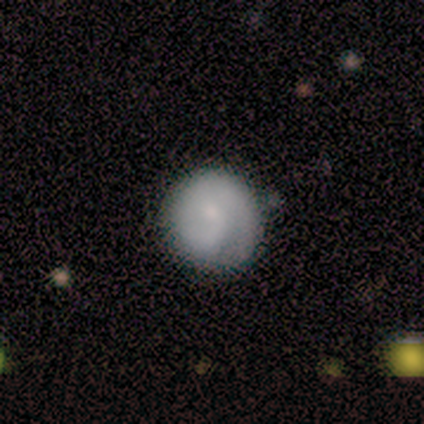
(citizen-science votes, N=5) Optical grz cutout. It shows a smooth galaxy with no disk features (80%) that is round (100%). Merging: none (80%).